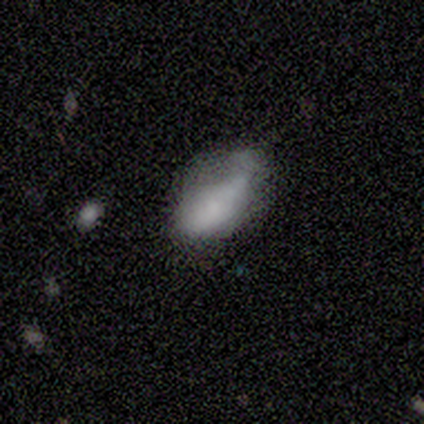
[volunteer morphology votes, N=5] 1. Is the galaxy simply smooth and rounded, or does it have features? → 100% smooth, 0% featured or disk, 0% star or artifact.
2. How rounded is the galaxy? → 100% in between, 0% round, 0% cigar-shaped.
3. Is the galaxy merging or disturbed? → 40% minor disturbance (tied), 40% major disturbance (tied), 20% merger, 0% none.